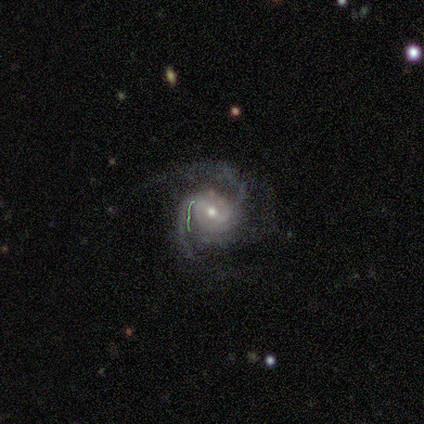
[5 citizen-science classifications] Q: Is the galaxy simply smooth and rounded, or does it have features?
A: featured or disk — 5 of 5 (100%).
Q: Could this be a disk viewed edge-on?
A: no — 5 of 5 (100%).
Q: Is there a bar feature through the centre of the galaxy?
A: strong — 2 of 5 (40%, tied with no).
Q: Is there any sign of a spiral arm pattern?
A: yes — 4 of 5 (80%).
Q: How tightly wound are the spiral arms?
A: medium — 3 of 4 (75%).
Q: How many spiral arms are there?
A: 2 — 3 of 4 (75%).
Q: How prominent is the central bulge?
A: moderate — 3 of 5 (60%).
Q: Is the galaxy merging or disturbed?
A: none — 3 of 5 (60%).